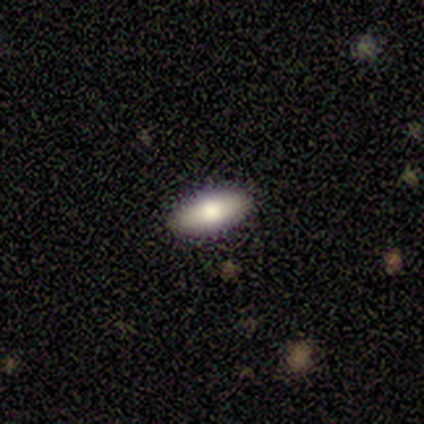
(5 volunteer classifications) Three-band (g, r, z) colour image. It shows a smooth galaxy with no disk features (80%) that is in between round and cigar-shaped (100%). Merging: none (100%).